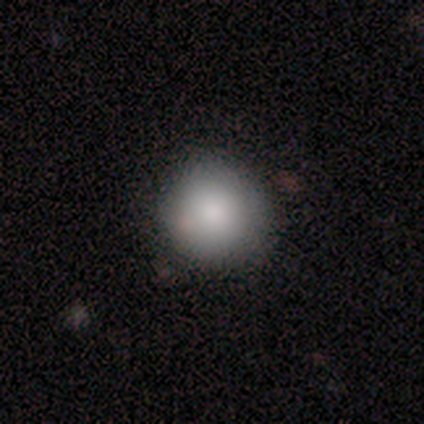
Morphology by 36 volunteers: Overall: smooth (83%). How rounded: round (97%). Merging: none (91%).